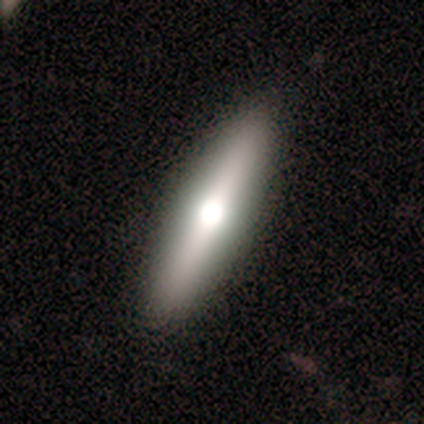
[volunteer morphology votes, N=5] Volunteers were most divided on "smooth or featured": featured or disk: 80%, smooth: 20%, star or artifact: 0%. More confident: edge-on disk — yes (100%); edge-on bulge — rounded (100%); merging — none (100%).